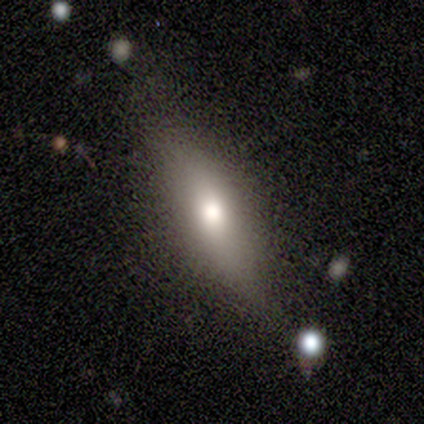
Smooth or featured? 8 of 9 (89%) said smooth. How rounded? 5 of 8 (62%) said cigar-shaped. Merging? 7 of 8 (88%) said none.